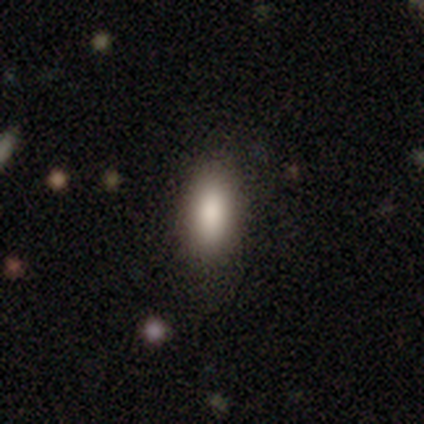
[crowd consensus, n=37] Overall: smooth (78%). How rounded: in between (86%). Merging: none (75%).